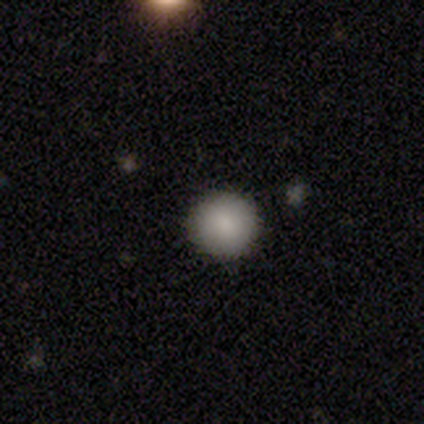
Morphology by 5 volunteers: Consensus on every question: smooth or featured — smooth (100%); how rounded — round (100%); merging — none (100%).